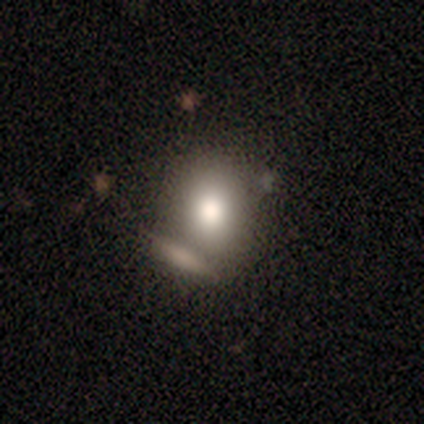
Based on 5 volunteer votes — A smooth galaxy with no disk features (80%) that is round (50%, tied with in between). Merging: merger (75%).